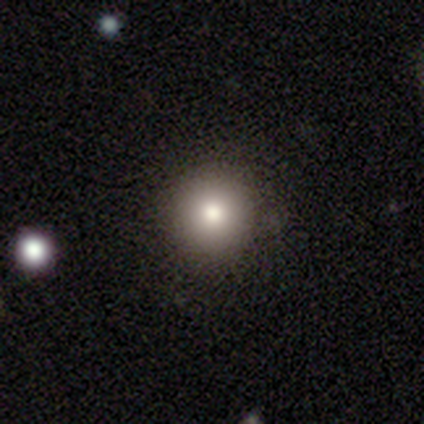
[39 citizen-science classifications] Smooth or featured: smooth — 67% (featured or disk — 21%)
How rounded: round — 96% (in between — 4%)
Merging: none — 82% (minor disturbance — 9%)